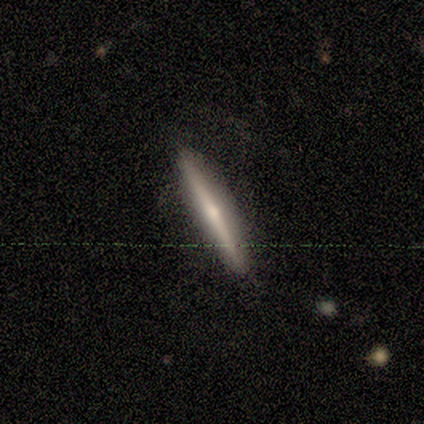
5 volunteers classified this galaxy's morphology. This is clearly a featured or disk galaxy (100%). It is clearly viewed edge-on (100%). Edge-on bulge: clearly rounded (100%). Merging: clearly none (80%).